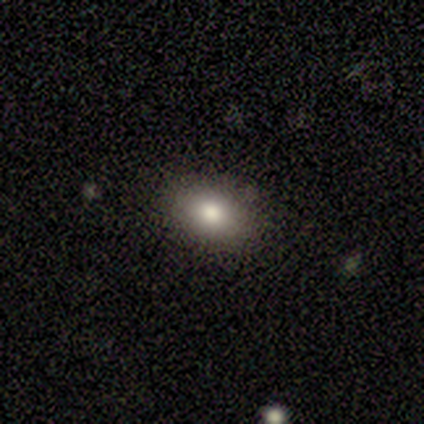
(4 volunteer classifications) Morphology: type=smooth (75%); roundness=in between (100%); merging=none (50%, tied with minor disturbance).